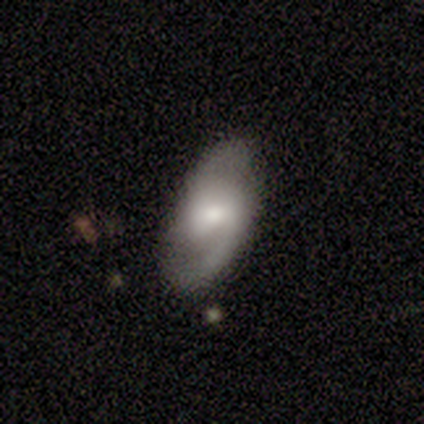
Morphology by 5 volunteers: This appears to be a featured or disk galaxy (80%) with a weak bar (67%), 2 (100%) loose (67%) spiral arms (100%) and a moderate central bulge (33%, tied with small and none). Merging: none (80%).